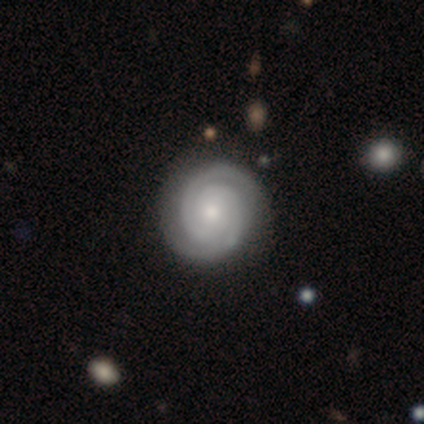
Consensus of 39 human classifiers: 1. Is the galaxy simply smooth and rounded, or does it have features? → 95% featured or disk, 5% star or artifact, 0% smooth.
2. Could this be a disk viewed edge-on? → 97% no, 3% yes.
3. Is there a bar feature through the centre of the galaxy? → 86% no, 8% weak, 6% strong.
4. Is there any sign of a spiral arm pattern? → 100% yes, 0% no.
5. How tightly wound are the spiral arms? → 86% tight, 14% medium, 0% loose.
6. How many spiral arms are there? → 89% 2, 8% can't tell, 3% 3, 0% 1, 0% 4, 0% more than 4.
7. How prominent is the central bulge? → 50% moderate, 44% small, 3% large, 3% none, 0% dominant.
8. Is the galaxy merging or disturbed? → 73% none, 14% minor disturbance, 3% merger, 0% major disturbance.